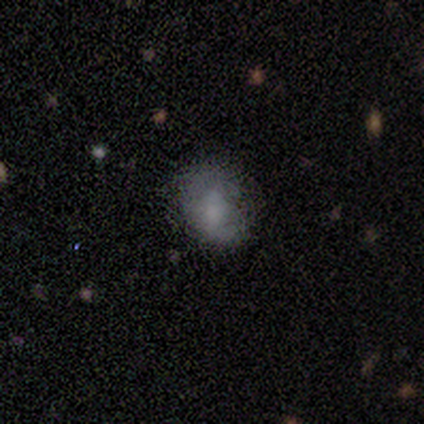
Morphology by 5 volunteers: Smooth or featured? smooth (60%)
How rounded? in between (67%)
Merging? none (75%)